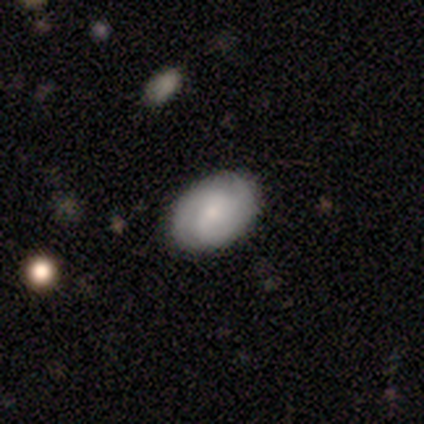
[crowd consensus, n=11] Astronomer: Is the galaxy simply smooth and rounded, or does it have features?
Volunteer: featured or disk — 55% (runner-up: smooth, 45%).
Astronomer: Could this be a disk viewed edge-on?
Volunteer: no — 100%.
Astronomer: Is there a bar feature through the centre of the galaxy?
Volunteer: no — 83%.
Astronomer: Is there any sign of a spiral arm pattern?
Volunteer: yes — 100%.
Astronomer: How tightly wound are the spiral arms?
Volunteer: tight — 50%, tied with medium at 50%.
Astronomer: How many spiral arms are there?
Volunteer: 2 — 33%, tied with 3 and can't tell at 33%.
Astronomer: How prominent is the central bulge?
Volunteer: small — 67%.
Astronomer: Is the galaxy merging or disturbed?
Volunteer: none — 91%.